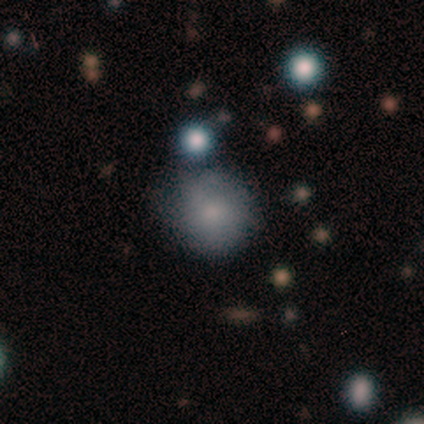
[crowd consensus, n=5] Smooth or featured? smooth (100%)
How rounded? round (80%)
Merging? none (60%)